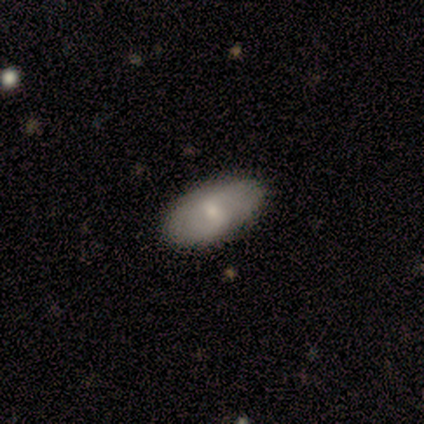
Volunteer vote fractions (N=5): smooth-or-featured: featured or disk: 60% | smooth: 40% | star or artifact: 0%
  disk-edge-on: no: 100% | yes: 0%
    bar: weak: 67% | no: 33% | strong: 0%
    has-spiral-arms: yes: 67% | no: 33%
      spiral-winding: tight: 50% (tied) | loose: 50% (tied) | medium: 0%
      spiral-arm-count: 2: 50% (tied) | can't tell: 50% (tied) | 1: 0% | 3: 0% | 4: 0% | more than 4: 0%
    bulge-size: small: 67% | moderate: 33% | dominant: 0% | large: 0% | none: 0%
  merging: none: 100% | minor disturbance: 0% | major disturbance: 0% | merger: 0%